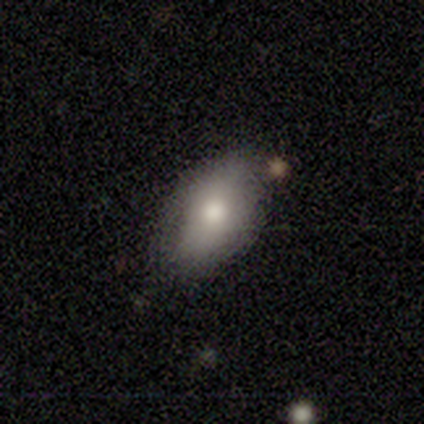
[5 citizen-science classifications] This appears to be a smooth galaxy with no disk features (80%) that is in between round and cigar-shaped (100%). Merging: none (75%).